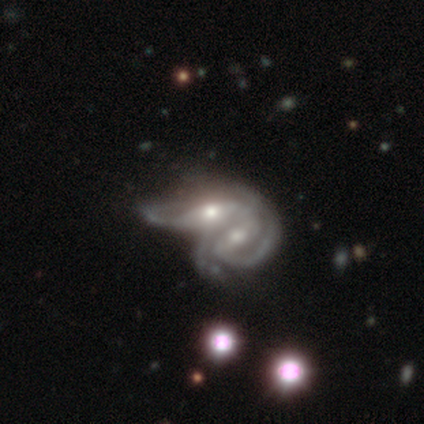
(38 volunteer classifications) Smooth or featured?
  - featured or disk: 89% *
  - smooth: 8%
  - star or artifact: 3%
Edge-on disk?
  - no: 94% *
  - yes: 6%
Bar?
  - strong: 38% *
  - no: 34%
  - weak: 28%
Spiral arms?
  - yes: 88% *
  - no: 12%
Spiral winding?
  - tight: 39% * (tied)
  - medium: 39% * (tied)
  - loose: 21%
Spiral arm count?
  - 2: 50% *
  - can't tell: 36%
  - 1: 7%
  - 3: 7%
  - 4: 0%
  - more than 4: 0%
Bulge size?
  - moderate: 62% *
  - small: 28%
  - dominant: 3%
  - large: 3%
  - none: 3%
Merging?
  - merger: 92% *
  - none: 5%
  - major disturbance: 3%
  - minor disturbance: 0%